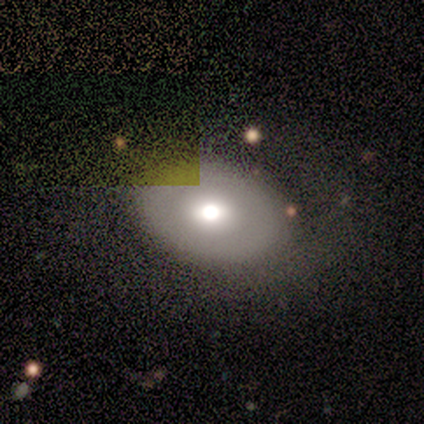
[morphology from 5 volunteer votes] smooth-or-featured: featured or disk: 40% (tied) | star or artifact: 40% (tied) | smooth: 20%
  disk-edge-on: no: 100% | yes: 0%
    bar: weak: 50% (tied) | no: 50% (tied) | strong: 0%
    has-spiral-arms: no: 100% | yes: 0%
    bulge-size: large: 50% (tied) | moderate: 50% (tied) | dominant: 0% | small: 0% | none: 0%
  merging: none: 100% | minor disturbance: 0% | major disturbance: 0% | merger: 0%